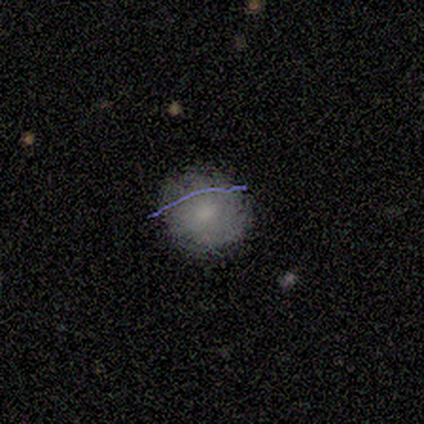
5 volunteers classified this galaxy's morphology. type=smooth (80%); roundness=round (50%, tied with in between); merging=none (80%).